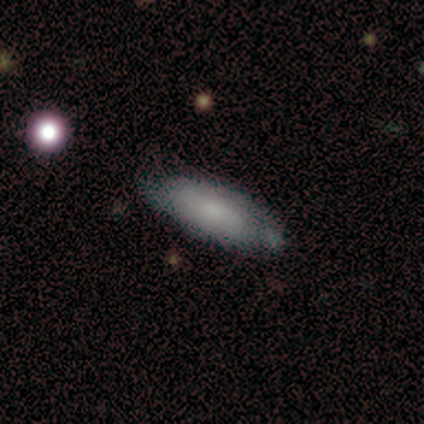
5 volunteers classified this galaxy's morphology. Smooth or featured?
  - smooth: 60% *
  - featured or disk: 40%
  - star or artifact: 0%
How rounded?
  - in between: 100% *
  - round: 0%
  - cigar-shaped: 0%
Merging?
  - none: 80% *
  - minor disturbance: 20%
  - major disturbance: 0%
  - merger: 0%